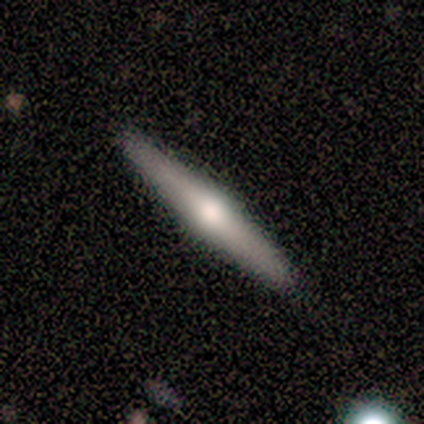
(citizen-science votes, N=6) Overall: featured or disk (67%; smooth 33%). Edge-on disk: yes (100%). Edge-on bulge: rounded (100%). Merging: none (67%).